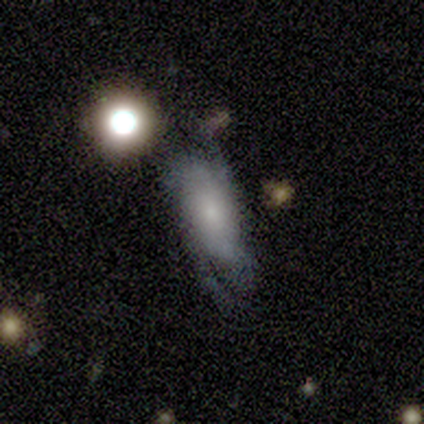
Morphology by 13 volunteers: smooth_or_featured: featured or disk (p=0.77) [alt: smooth p=0.23]
disk_edge_on: no (p=1.00)
bar: no (p=0.90) [alt: weak p=0.10]
has_spiral_arms: yes (p=0.80) [alt: no p=0.20]
spiral_winding: tight (p=0.38) [tied with: medium p=0.38]
spiral_arm_count: 2 (p=0.62) [alt: can't tell p=0.25]
bulge_size: small (p=0.40) [alt: none p=0.30]
merging: none (p=0.69) [alt: minor disturbance p=0.15]